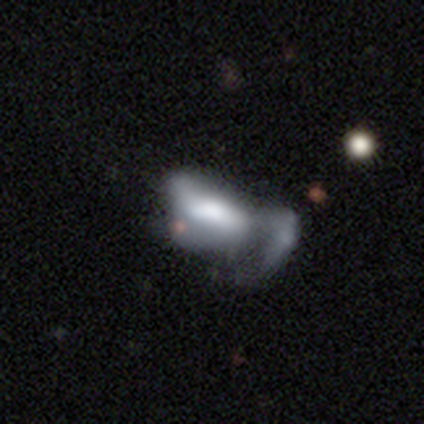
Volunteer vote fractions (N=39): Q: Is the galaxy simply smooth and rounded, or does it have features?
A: featured or disk — 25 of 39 (64%).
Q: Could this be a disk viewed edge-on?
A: no — 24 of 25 (96%).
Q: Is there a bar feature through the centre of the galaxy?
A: no — 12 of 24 (50%).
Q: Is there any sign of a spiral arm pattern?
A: no — 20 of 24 (83%).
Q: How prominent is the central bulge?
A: none — 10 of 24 (42%).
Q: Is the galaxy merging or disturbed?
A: major disturbance — 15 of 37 (41%, tied with merger).